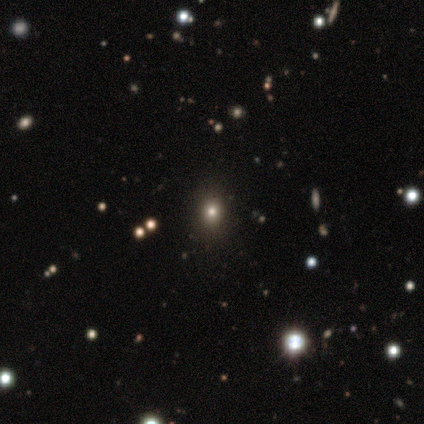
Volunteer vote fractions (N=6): Smooth or featured: smooth — 67% (star or artifact — 33%)
How rounded: round — 50% (tied with in between — 50%)
Merging: none — 75% (minor disturbance — 25%)